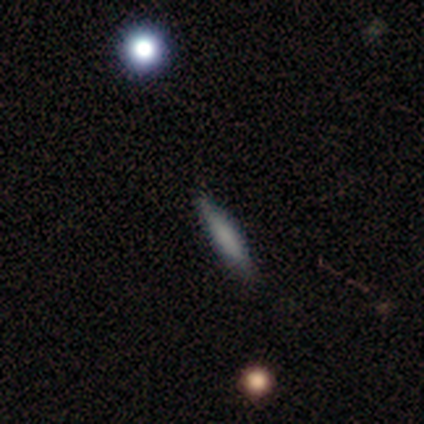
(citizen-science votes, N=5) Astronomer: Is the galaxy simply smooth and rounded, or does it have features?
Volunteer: smooth — 100%.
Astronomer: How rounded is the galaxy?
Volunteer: cigar-shaped — 100%.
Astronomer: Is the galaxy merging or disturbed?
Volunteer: none — 60% (runner-up: minor disturbance, 40%).